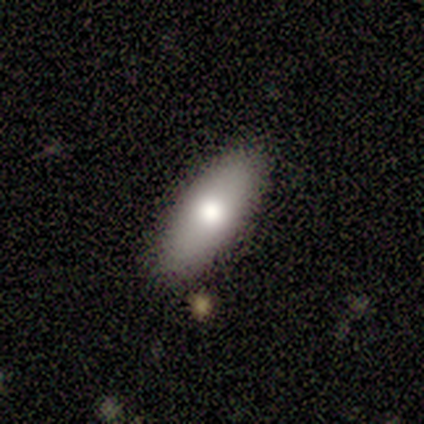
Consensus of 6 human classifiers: smooth 67%, featured or disk 17%, star or artifact 17%. Down the decision tree: how rounded — in between (75%); merging — none (100%).